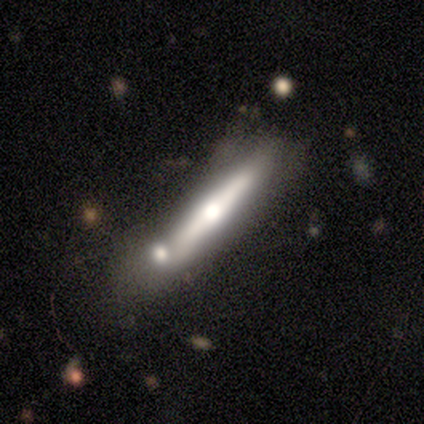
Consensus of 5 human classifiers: Morphology: type=featured or disk (100%); edge-on=yes (80%); edge-on bulge=rounded (100%); merging=none (40%).